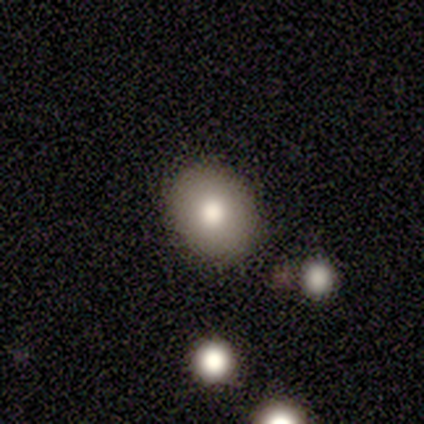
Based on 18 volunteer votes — Smooth or featured?
  - smooth: 83% *
  - featured or disk: 11%
  - star or artifact: 6%
How rounded?
  - round: 53% *
  - in between: 47%
  - cigar-shaped: 0%
Merging?
  - none: 88% *
  - minor disturbance: 12%
  - major disturbance: 0%
  - merger: 0%